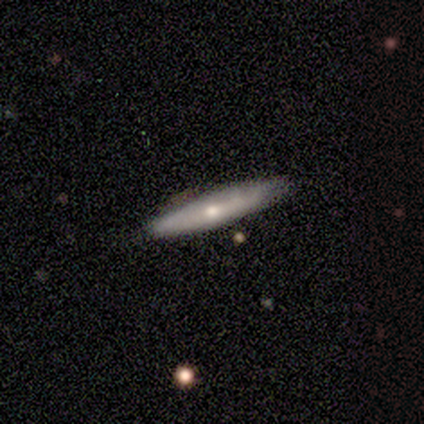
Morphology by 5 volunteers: Q: Smooth or featured?
A: smooth (40%); tied with: featured or disk (40%)
Q: How rounded?
A: cigar-shaped (100%)
Q: Merging?
A: none (75%); runner-up: minor disturbance (25%)